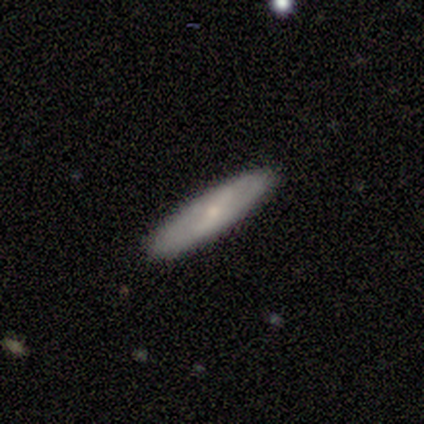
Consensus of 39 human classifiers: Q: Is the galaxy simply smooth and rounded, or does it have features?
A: smooth — 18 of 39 (46%).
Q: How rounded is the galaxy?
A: cigar-shaped — 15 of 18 (83%).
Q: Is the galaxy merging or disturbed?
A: none — 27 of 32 (84%).